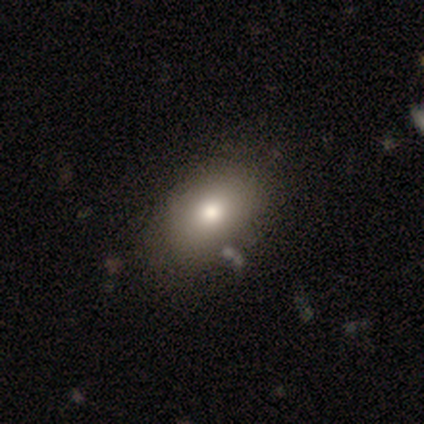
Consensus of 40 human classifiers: This is clearly a smooth galaxy (85%). How rounded: clearly in between (88%). Merging: likely none (62%).